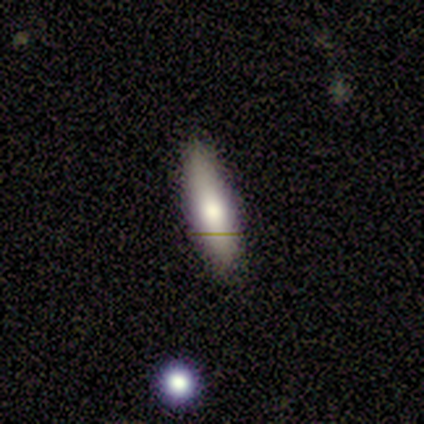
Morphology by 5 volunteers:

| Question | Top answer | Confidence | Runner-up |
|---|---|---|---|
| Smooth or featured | smooth | 100% | — |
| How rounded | in between | 60% | cigar-shaped (40%) |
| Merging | none | 80% | minor disturbance (20%) |